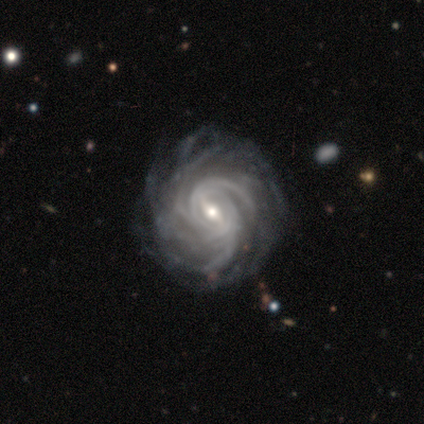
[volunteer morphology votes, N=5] This is clearly a featured or disk galaxy (80%). It is clearly not viewed edge-on (100%). Bar: clearly strong (100%). Spiral arm pattern: clearly yes (100%). Spiral arm count: possibly can't tell (50%). Spiral winding: possibly tight (50%, tied with medium). Central bulge: likely small (75%). Merging: possibly none (50%, tied with minor disturbance).